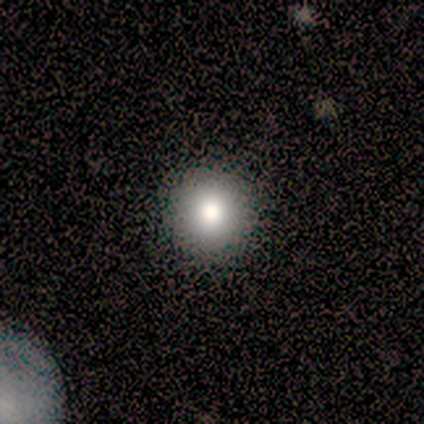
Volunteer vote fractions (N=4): Smooth or featured: smooth — 75% (featured or disk — 25%)
How rounded: round — 100%
Merging: none — 100%